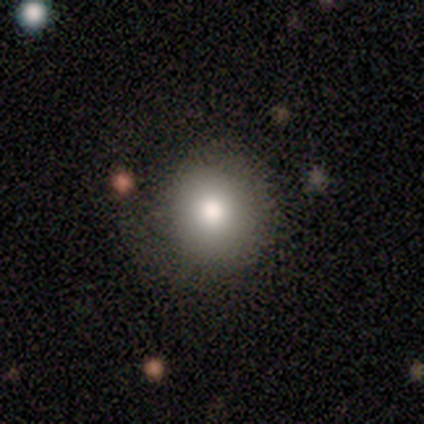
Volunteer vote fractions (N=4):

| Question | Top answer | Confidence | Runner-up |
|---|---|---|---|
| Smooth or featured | smooth | 75% | star or artifact (25%) |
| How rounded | round | 100% | — |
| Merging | none | 67% | minor disturbance (33%) |